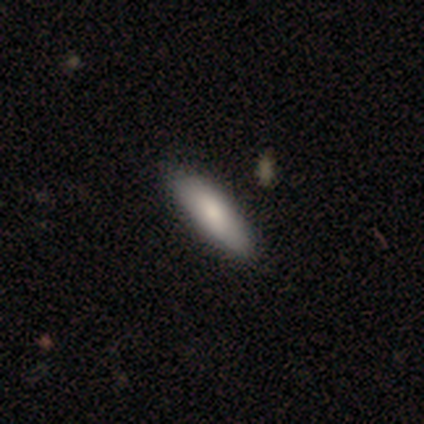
Morphology: type=smooth (80%); roundness=in between (75%); merging=none (100%).